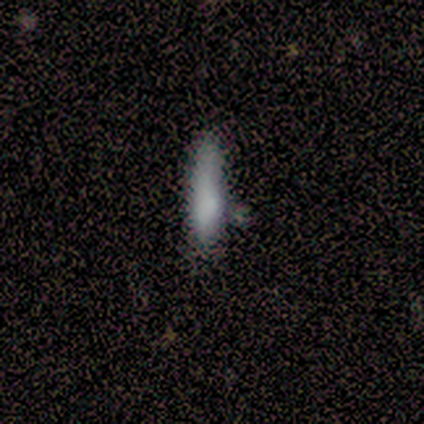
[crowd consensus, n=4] Q: Smooth or featured?
A: smooth (100%)
Q: How rounded?
A: cigar-shaped (100%)
Q: Merging?
A: none (75%); runner-up: minor disturbance (25%)